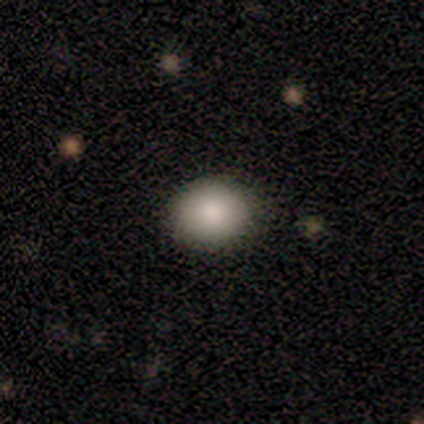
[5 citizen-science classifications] A smooth galaxy with no disk features (100%) that is round (60%). Merging: none (80%).